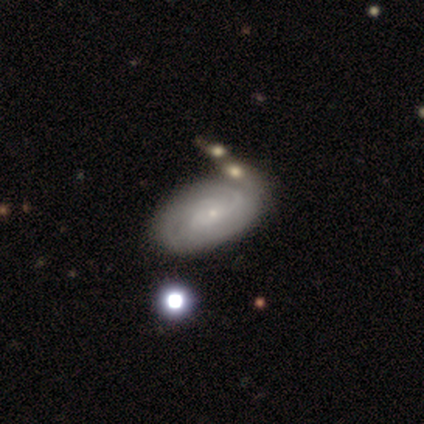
A featured or disk galaxy (68%) with no bar (88%), 3 (44%) tight (64%) spiral arms (96%) and a small central bulge (92%). Merging: merger (22%).